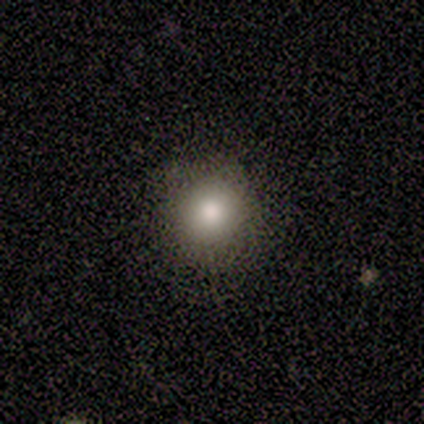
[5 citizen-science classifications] A smooth galaxy with no disk features (100%) that is round (100%).

Vote fractions:
- Smooth or featured? smooth: 100% / featured or disk: 0% / star or artifact: 0%
- How rounded? round: 100% / in between: 0% / cigar-shaped: 0%
- Merging? none: 80% / minor disturbance: 20% / major disturbance: 0% / merger: 0%